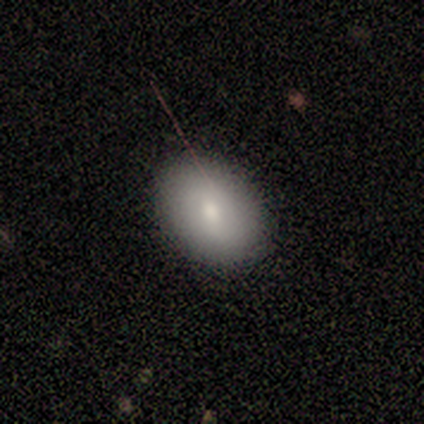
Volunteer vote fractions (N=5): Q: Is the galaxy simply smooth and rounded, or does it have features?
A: smooth — 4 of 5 (80%).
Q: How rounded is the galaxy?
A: round — 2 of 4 (50%, tied with in between).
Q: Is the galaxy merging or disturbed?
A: none — 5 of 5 (100%).